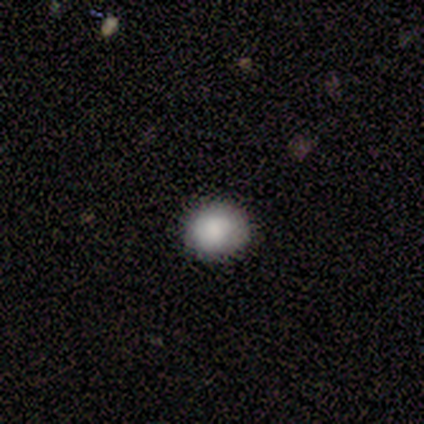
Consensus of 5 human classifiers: Overall: smooth (80%). How rounded: round (100%). Merging: none (80%).